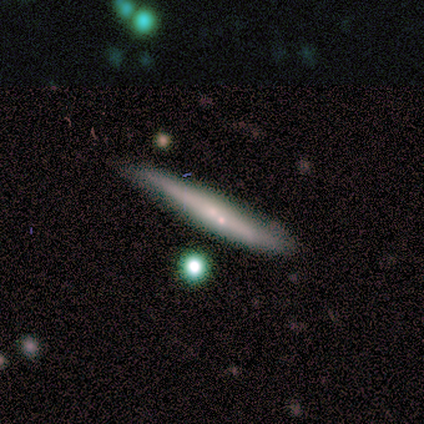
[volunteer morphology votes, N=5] smooth-or-featured: featured or disk: 80% | smooth: 20% | star or artifact: 0%
  disk-edge-on: yes: 100% | no: 0%
    edge-on-bulge: none: 50% (tied) | rounded: 50% (tied) | boxy: 0%
  merging: minor disturbance: 60% | merger: 40% | none: 0% | major disturbance: 0%